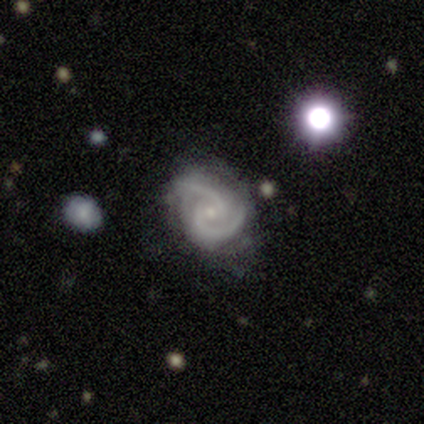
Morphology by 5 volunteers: Smooth or featured: featured or disk — 100%
Edge-on disk: no — 100%
Bar: no — 60% (weak — 40%)
Spiral arms: yes — 100%
Spiral winding: medium — 60% (tight — 40%)
Spiral arm count: 2 — 100%
Bulge size: moderate — 60% (small — 40%)
Merging: none — 100%